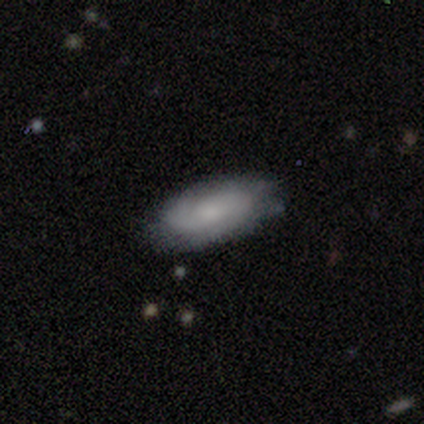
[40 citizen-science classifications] A smooth galaxy with no disk features (48%, tied with featured or disk) that is in between round and cigar-shaped (95%).

Vote fractions:
- Smooth or featured? smooth: 48% (tied) / featured or disk: 48% (tied) / star or artifact: 5%
- How rounded? in between: 95% / round: 5% / cigar-shaped: 0%
- Merging? none: 76% / minor disturbance: 18% / major disturbance: 5% / merger: 0%